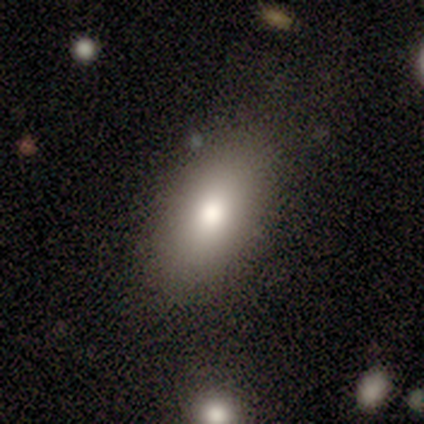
This is likely a smooth galaxy (74%). How rounded: clearly in between (92%). Merging: clearly none (84%).